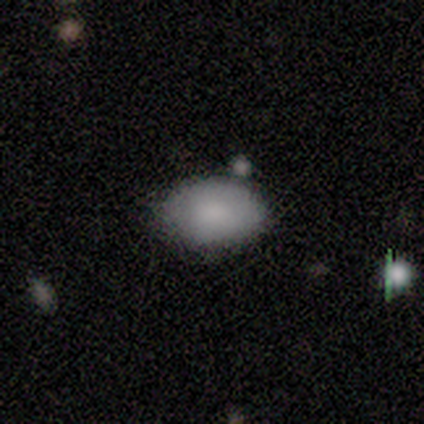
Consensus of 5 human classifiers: Overall: smooth (100%). How rounded: in between (80%). Merging: none (60%; major disturbance 20%).